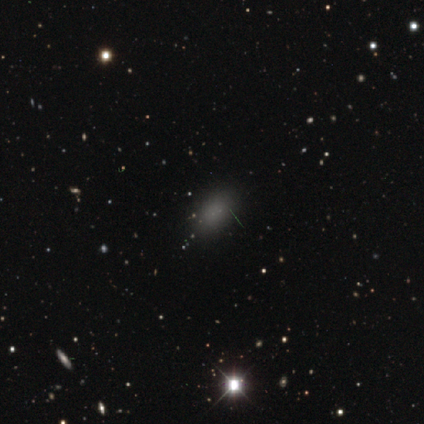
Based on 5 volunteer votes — This appears to be a smooth galaxy with no disk features (80%) that is in between round and cigar-shaped (100%). Merging: none (100%).